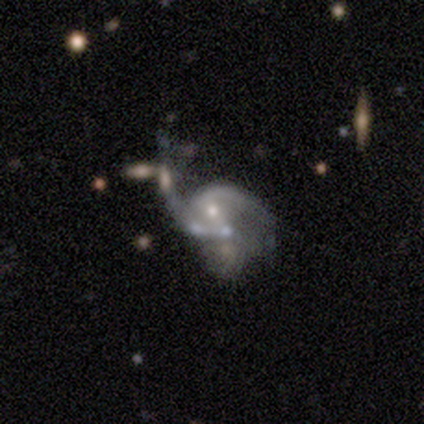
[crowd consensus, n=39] Overall: featured or disk (85%). Edge-on disk: no (97%). Bar: no (62%; weak 34%). Spiral arms: yes (88%). Spiral arm count: 2 (36%; 3 25%). Spiral winding: medium (43%; loose 39%). Bulge size: moderate (41%; small 38%). Merging: merger (49%; major disturbance 37%).